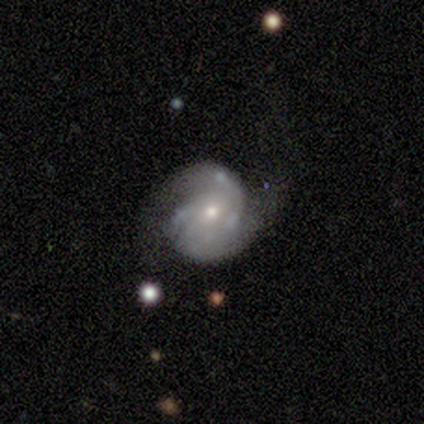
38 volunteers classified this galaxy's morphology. Smooth or featured: featured or disk — 87% (smooth — 8%)
Edge-on disk: no — 100%
Bar: no — 55% (weak — 33%)
Spiral arms: yes — 91% (no — 9%)
Spiral winding: medium — 47% (tight — 43%)
Spiral arm count: 2 — 40% (3 — 33%)
Bulge size: moderate — 48% (small — 42%)
Merging: none — 39% (minor disturbance — 31%)